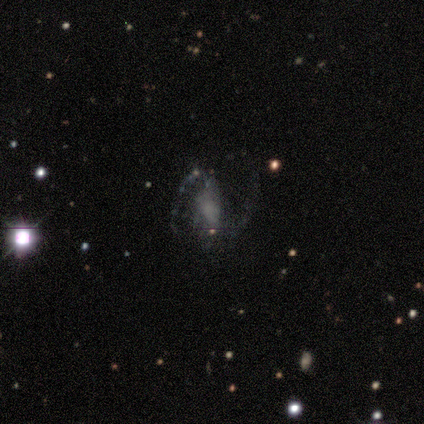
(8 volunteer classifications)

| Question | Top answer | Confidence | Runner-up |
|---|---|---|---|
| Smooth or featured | featured or disk | 62% | star or artifact (25%) |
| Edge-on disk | no | 100% | — |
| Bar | no | 60% | strong (20%) |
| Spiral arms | yes | 80% | no (20%) |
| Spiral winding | medium | 100% | — |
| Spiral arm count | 2 | 75% | can't tell (25%) |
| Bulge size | none | 60% | large (20%) |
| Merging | none | 33% | tied: minor disturbance (33%) |